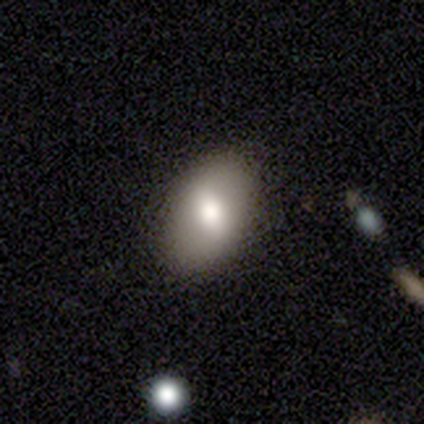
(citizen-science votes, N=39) Morphology: type=smooth (67%); roundness=in between (77%); merging=none (85%).